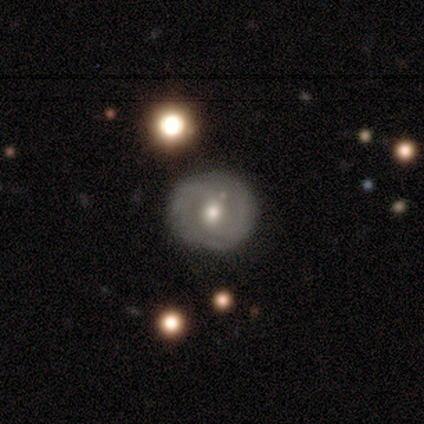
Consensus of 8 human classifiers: featured or disk 62%, smooth 25%, star or artifact 12%. Down the decision tree: edge-on disk — no (100%); bar — no (60%); spiral arms — yes (80%); spiral arm count — can't tell (50%); spiral winding — tight (75%); bulge size — moderate (60%); merging — none (100%).